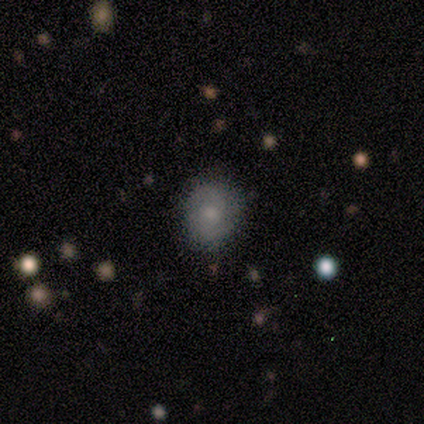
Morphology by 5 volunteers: A featured or disk galaxy (60%) with no bar (100%), no spiral arms (67%) and a moderate central bulge (67%).

Vote fractions:
- Smooth or featured? featured or disk: 60% / smooth: 40% / star or artifact: 0%
- Edge-on disk? no: 100% / yes: 0%
- Bar? no: 100% / strong: 0% / weak: 0%
- Spiral arms? no: 67% / yes: 33%
- Bulge size? moderate: 67% / small: 33% / dominant: 0% / large: 0% / none: 0%
- Merging? none: 80% / minor disturbance: 20% / major disturbance: 0% / merger: 0%